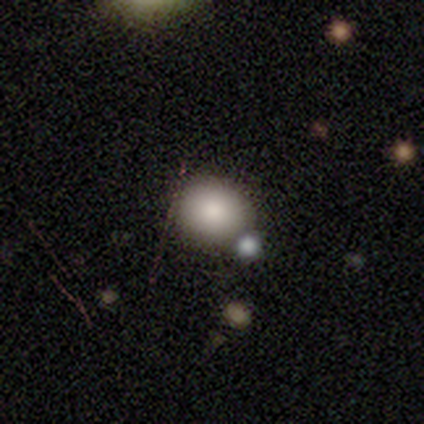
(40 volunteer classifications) Smooth or featured: smooth — 88% (featured or disk — 10%)
How rounded: round — 54% (in between — 46%)
Merging: none — 56% (merger — 10%)